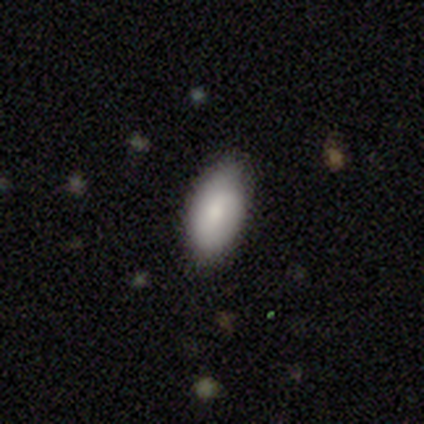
Smooth or featured? 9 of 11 (82%) said smooth. How rounded? 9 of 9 (100%) said in between. Merging? 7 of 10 (70%) said none.